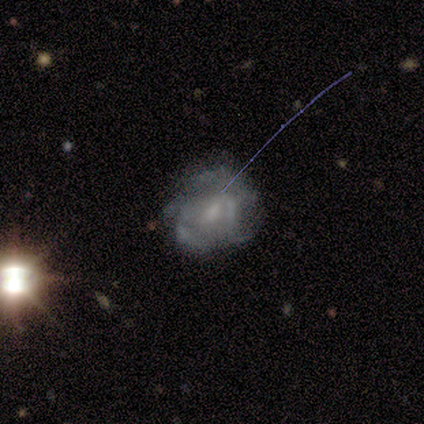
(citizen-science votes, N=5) A featured or disk galaxy (100%) with no bar (60%), 3 (67%) loose (67%) spiral arms (60%) and a small central bulge (60%). Merging: none (60%).